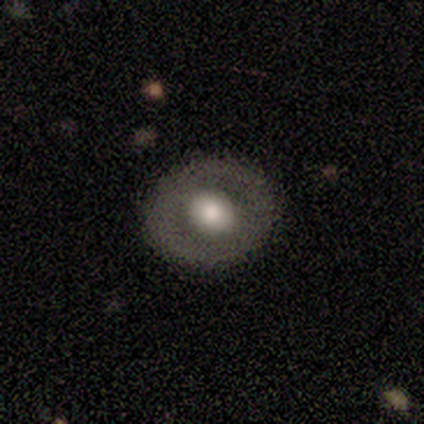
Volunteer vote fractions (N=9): Volunteers were most divided on "bulge size": large: 60%, moderate: 40%, dominant: 0%, small: 0%, none: 0%. More confident: spiral arms — no (100%); merging — none (89%); edge-on disk — no (83%); bar — no (80%); smooth or featured — featured or disk (67%).